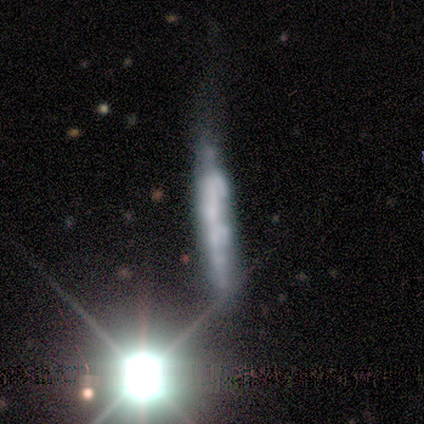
smooth_or_featured: featured or disk (p=0.60) [alt: smooth p=0.20]
disk_edge_on: yes (p=0.67) [alt: no p=0.33]
edge_on_bulge: none (p=1.00)
merging: none (p=0.50) [tied with: major disturbance p=0.50]